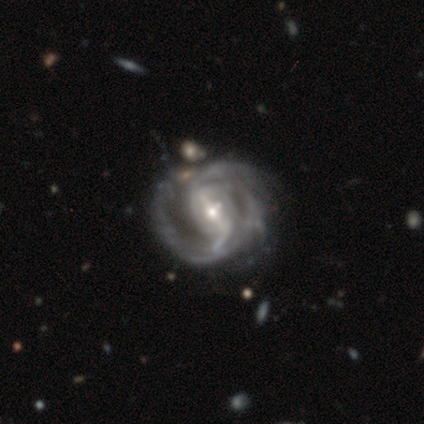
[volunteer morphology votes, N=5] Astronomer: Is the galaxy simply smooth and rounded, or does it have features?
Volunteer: featured or disk — 100%.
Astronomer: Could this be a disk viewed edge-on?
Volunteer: no — 100%.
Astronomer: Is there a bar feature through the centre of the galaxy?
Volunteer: strong — 60%.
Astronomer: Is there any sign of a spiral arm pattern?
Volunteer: yes — 100%.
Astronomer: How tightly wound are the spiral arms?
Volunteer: medium — 60% (runner-up: tight, 40%).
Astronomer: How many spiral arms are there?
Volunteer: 2 — 40%, tied with 3 at 40%.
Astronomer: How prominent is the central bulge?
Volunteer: small — 80%.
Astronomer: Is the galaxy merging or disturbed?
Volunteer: none — 80%.